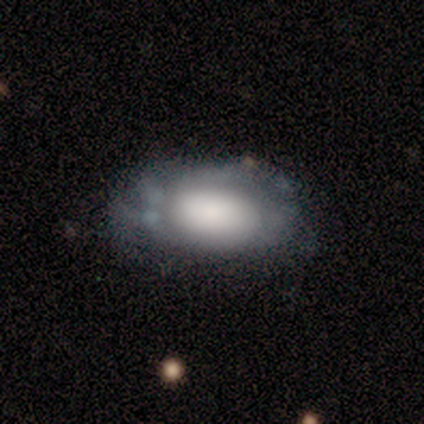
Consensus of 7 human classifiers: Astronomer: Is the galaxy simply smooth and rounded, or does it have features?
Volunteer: featured or disk — 71%.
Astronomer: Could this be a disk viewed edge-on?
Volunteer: no — 60% (runner-up: yes, 40%).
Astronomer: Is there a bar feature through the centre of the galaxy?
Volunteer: no — 100%.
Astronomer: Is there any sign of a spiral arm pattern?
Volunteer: yes — 67%.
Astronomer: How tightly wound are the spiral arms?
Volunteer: tight — 100%.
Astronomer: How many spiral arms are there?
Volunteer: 2 — 50%, tied with can't tell at 50%.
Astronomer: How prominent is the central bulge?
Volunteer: dominant — 33%, tied with large and small at 33%.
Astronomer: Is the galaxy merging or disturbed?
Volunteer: none — 57% (runner-up: minor disturbance, 43%).